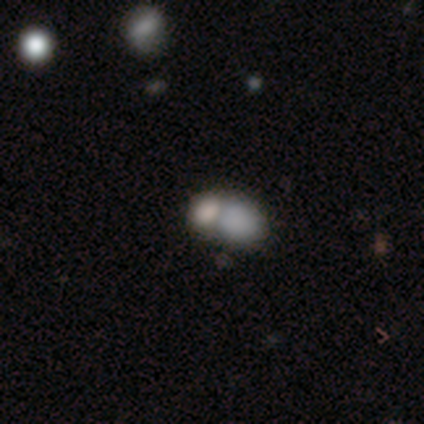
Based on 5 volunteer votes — This appears to be a smooth galaxy with no disk features (40%, tied with featured or disk) that is in between round and cigar-shaped (100%). Merging: merger (100%).